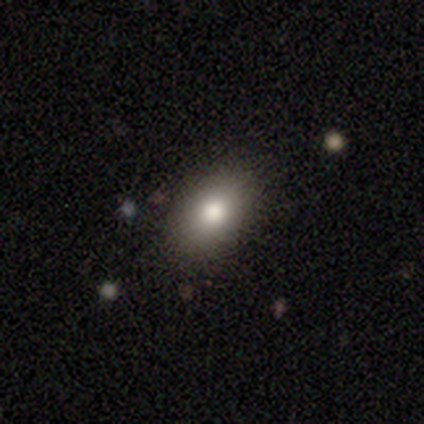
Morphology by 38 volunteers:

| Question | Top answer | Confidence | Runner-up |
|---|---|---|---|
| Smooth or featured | smooth | 82% | featured or disk (13%) |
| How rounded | in between | 90% | round (6%) |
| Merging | none | 61% | minor disturbance (11%) |